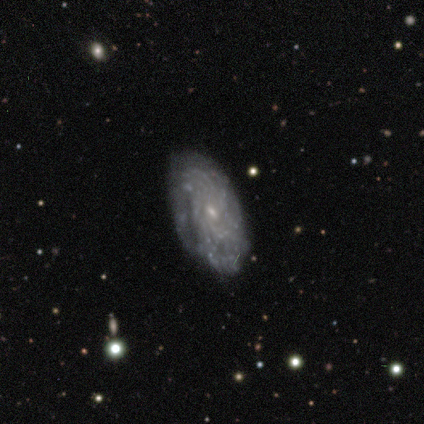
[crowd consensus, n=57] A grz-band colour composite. It shows a featured or disk galaxy (91%) with no bar (59%), more than 4 (49%) tight (67%) spiral arms (88%) and a small central bulge (86%). Merging: none (82%).